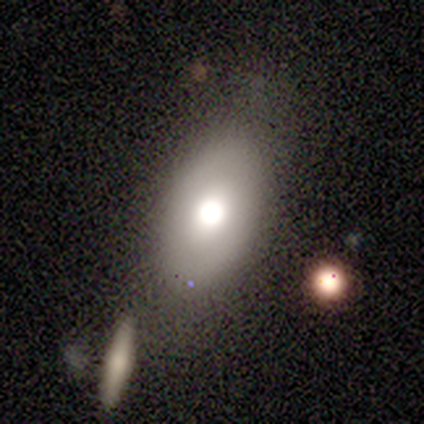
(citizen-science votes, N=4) Smooth or featured? smooth (50%)
How rounded? in between (100%)
Merging? none (67%)